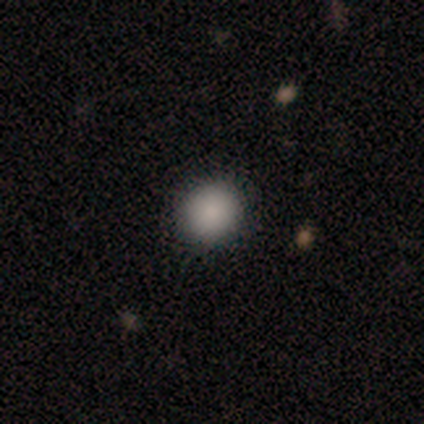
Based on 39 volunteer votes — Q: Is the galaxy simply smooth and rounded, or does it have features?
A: smooth — 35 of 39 (90%).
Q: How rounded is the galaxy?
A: round — 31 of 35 (89%).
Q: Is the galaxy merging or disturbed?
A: none — 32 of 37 (86%).